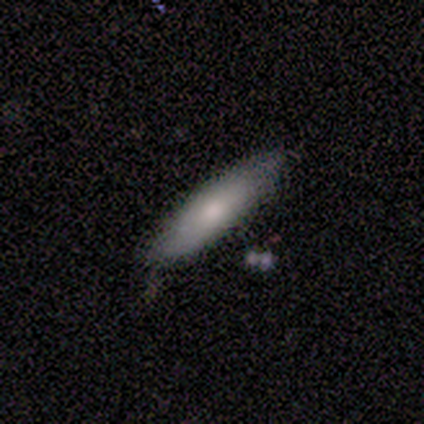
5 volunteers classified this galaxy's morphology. A smooth galaxy with no disk features (60%) that is cigar-shaped (100%).

Vote fractions:
- Smooth or featured? smooth: 60% / featured or disk: 20% / star or artifact: 20%
- How rounded? cigar-shaped: 100% / round: 0% / in between: 0%
- Merging? none: 75% / minor disturbance: 25% / major disturbance: 0% / merger: 0%